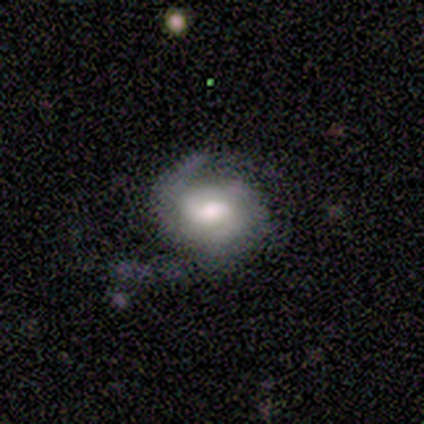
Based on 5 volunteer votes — Morphology: type=smooth (60%); roundness=round (67%); merging=major disturbance (60%).